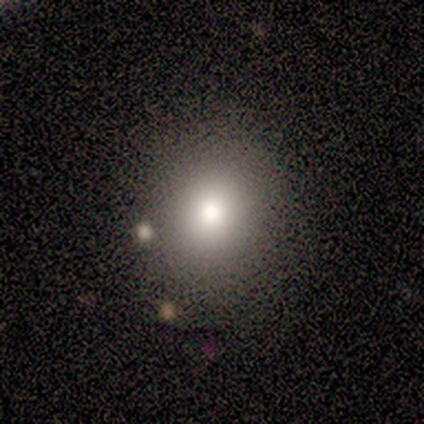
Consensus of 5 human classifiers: Q: Smooth or featured?
A: star or artifact (60%); runner-up: smooth (40%)